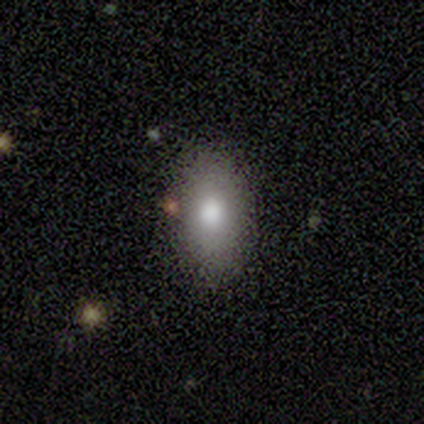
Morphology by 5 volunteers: A smooth galaxy with no disk features (100%) that is in between round and cigar-shaped (100%).

Vote fractions:
- Smooth or featured? smooth: 100% / featured or disk: 0% / star or artifact: 0%
- How rounded? in between: 100% / round: 0% / cigar-shaped: 0%
- Merging? none: 100% / minor disturbance: 0% / major disturbance: 0% / merger: 0%